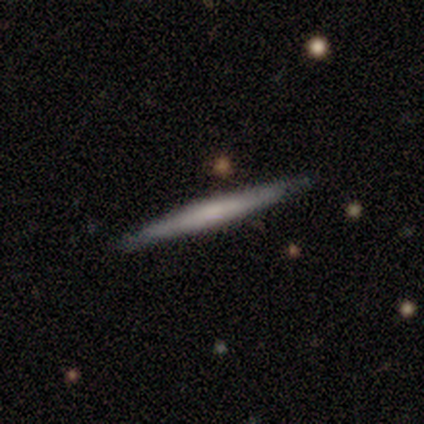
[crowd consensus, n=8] Q: Smooth or featured?
A: smooth (62%); runner-up: featured or disk (38%)
Q: How rounded?
A: cigar-shaped (100%)
Q: Merging?
A: none (100%)